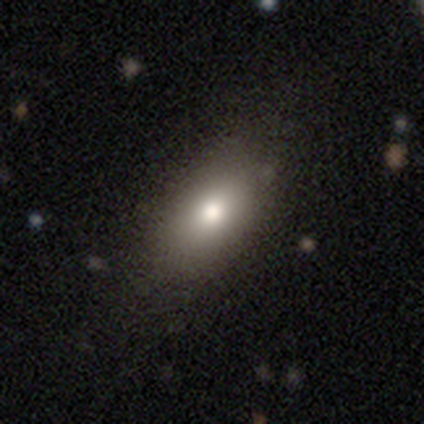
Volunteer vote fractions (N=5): A smooth galaxy with no disk features (100%) that is in between round and cigar-shaped (100%).

Vote fractions:
- Smooth or featured? smooth: 100% / featured or disk: 0% / star or artifact: 0%
- How rounded? in between: 100% / round: 0% / cigar-shaped: 0%
- Merging? none: 80% / minor disturbance: 20% / major disturbance: 0% / merger: 0%